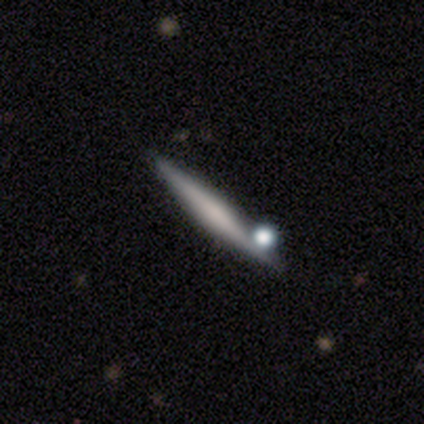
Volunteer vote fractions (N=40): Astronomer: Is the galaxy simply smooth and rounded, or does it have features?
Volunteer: featured or disk — 65%.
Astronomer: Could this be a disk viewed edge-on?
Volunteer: yes — 92%.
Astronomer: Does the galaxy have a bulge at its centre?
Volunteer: rounded — 50% (runner-up: none, 29%).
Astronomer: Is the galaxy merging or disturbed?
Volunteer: none — 79%.